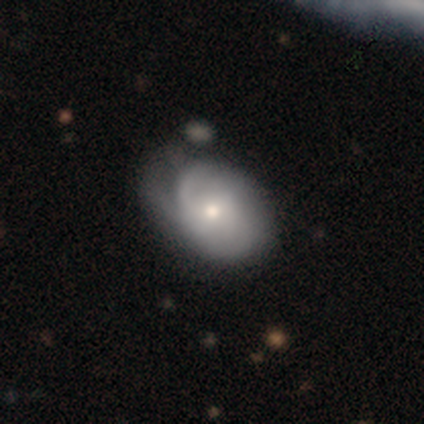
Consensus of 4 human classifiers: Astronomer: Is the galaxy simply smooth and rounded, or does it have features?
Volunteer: smooth — 75%.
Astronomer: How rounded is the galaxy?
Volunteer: in between — 100%.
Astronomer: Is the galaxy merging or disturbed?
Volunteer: minor disturbance — 50%.